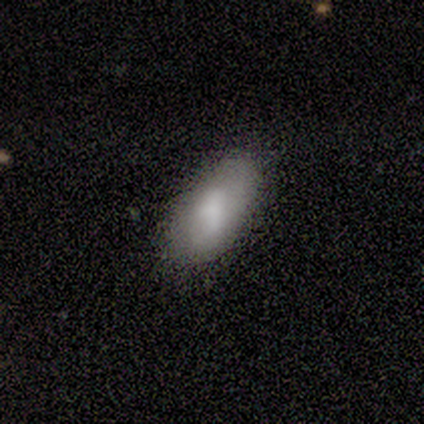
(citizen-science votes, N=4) This is likely a smooth galaxy (75%). How rounded: clearly in between (100%). Merging: likely none (67%).